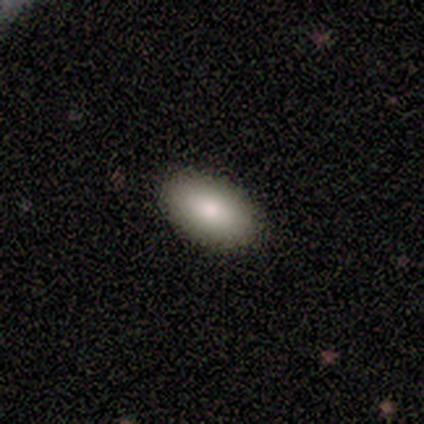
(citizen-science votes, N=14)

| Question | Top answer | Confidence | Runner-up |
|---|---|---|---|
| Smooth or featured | smooth | 93% | featured or disk (7%) |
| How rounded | in between | 100% | — |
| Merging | none | 100% | — |